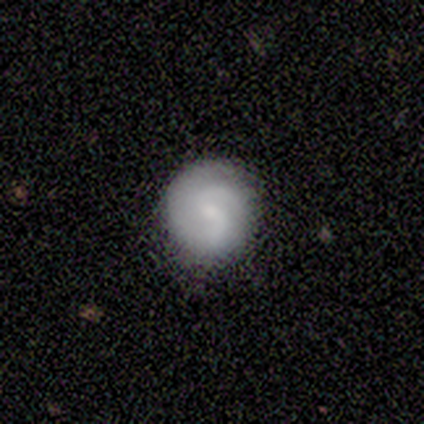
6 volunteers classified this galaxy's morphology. This is clearly a featured or disk galaxy (100%). It is clearly not viewed edge-on (100%). Bar: possibly weak (50%). Spiral arm pattern: clearly yes (83%). Spiral arm count: clearly 2 (80%). Spiral winding: likely tight (60%). Central bulge: likely small (67%). Merging: clearly none (100%).